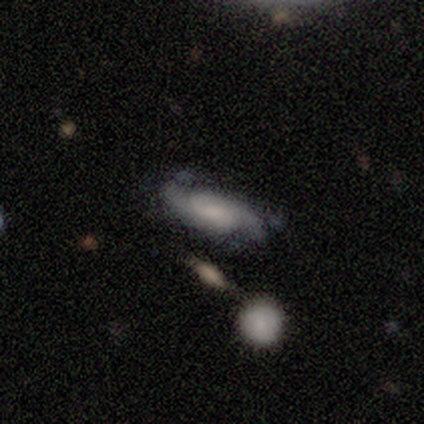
This is likely a featured or disk galaxy (66%). It is clearly not viewed edge-on (91%). Bar: likely no (63%). Spiral arm pattern: clearly yes (88%). Spiral arm count: likely 2 (78%). Spiral winding: marginally medium (39%). Central bulge: marginally moderate (35%). Merging: possibly none (54%).